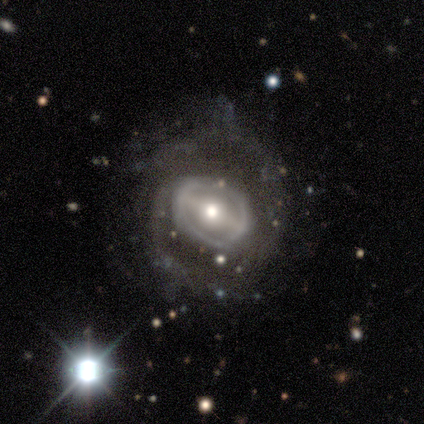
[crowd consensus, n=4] Smooth or featured: featured or disk — 100%
Edge-on disk: no — 100%
Bar: strong — 75% (no — 25%)
Spiral arms: no — 75% (yes — 25%)
Bulge size: moderate — 75% (small — 25%)
Merging: none — 50% (minor disturbance — 25%)